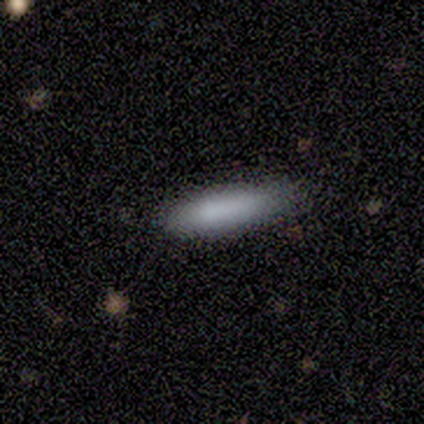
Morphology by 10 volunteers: Smooth or featured?
  - smooth: 80% *
  - star or artifact: 20%
  - featured or disk: 0%
How rounded?
  - cigar-shaped: 88% *
  - in between: 12%
  - round: 0%
Merging?
  - none: 100% *
  - minor disturbance: 0%
  - major disturbance: 0%
  - merger: 0%